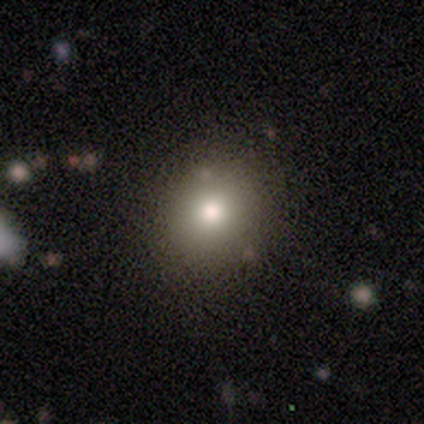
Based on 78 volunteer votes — This is clearly a smooth galaxy (85%). How rounded: likely round (76%). Merging: possibly none (56%).